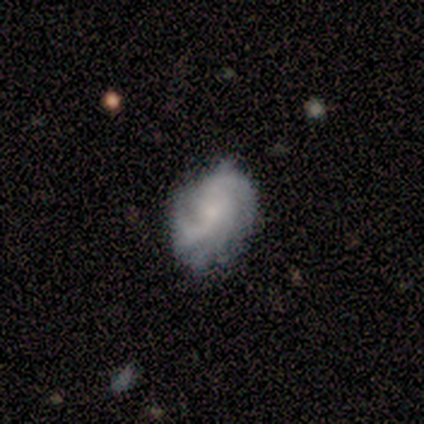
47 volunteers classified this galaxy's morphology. This is likely a featured or disk galaxy (77%). It is clearly not viewed edge-on (100%). Bar: clearly no (83%). Spiral arm pattern: clearly yes (97%). Spiral arm count: marginally 3 (34%). Spiral winding: possibly tight (49%). Central bulge: marginally moderate (39%, tied with small). Merging: likely none (61%).